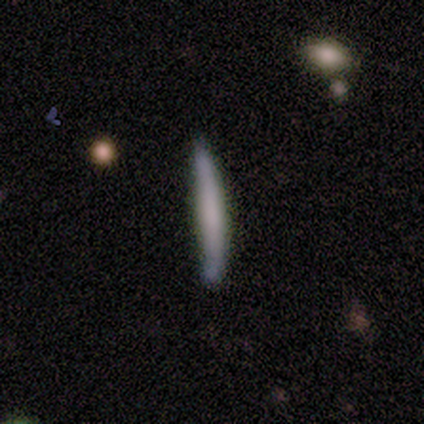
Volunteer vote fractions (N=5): Q: Smooth or featured?
A: smooth (100%)
Q: How rounded?
A: cigar-shaped (100%)
Q: Merging?
A: none (60%); runner-up: minor disturbance (40%)